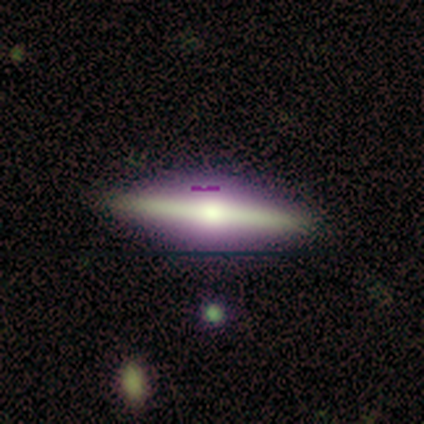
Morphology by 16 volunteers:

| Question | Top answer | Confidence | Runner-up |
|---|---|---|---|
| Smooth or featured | featured or disk | 81% | smooth (19%) |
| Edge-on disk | yes | 100% | — |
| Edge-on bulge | rounded | 92% | none (8%) |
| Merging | none | 81% | minor disturbance (19%) |